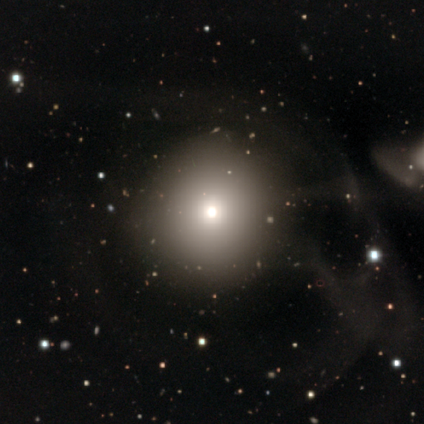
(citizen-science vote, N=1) A smooth galaxy with no disk features (100%) that is round (100%).

Vote fractions:
- Smooth or featured? smooth: 100% / featured or disk: 0% / star or artifact: 0%
- How rounded? round: 100% / in between: 0% / cigar-shaped: 0%
- Merging? none: 100% / minor disturbance: 0% / major disturbance: 0% / merger: 0%